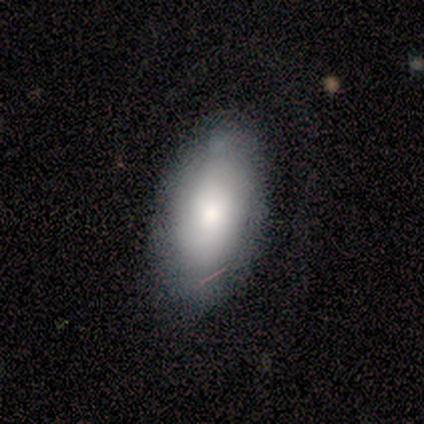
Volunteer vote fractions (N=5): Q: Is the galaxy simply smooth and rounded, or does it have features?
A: smooth — 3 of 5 (60%).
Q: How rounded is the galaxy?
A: in between — 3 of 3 (100%).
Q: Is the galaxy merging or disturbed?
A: none — 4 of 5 (80%).